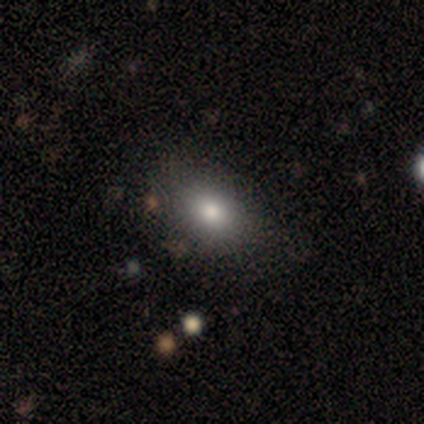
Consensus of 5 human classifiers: Smooth or featured: smooth — 80% (star or artifact — 20%)
How rounded: round — 50% (tied with in between — 50%)
Merging: none — 75% (merger — 25%)